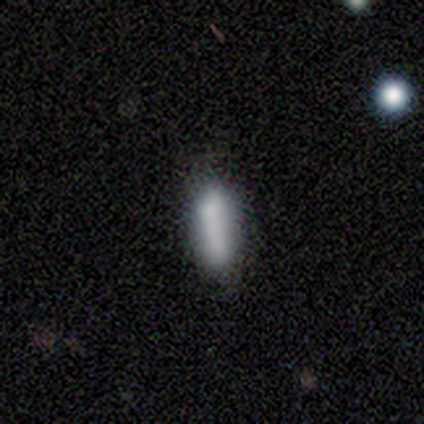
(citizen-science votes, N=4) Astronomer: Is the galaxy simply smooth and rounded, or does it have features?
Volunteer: smooth — 100%.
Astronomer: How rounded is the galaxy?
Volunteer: in between — 75%.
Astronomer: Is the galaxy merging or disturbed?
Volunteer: none — 100%.